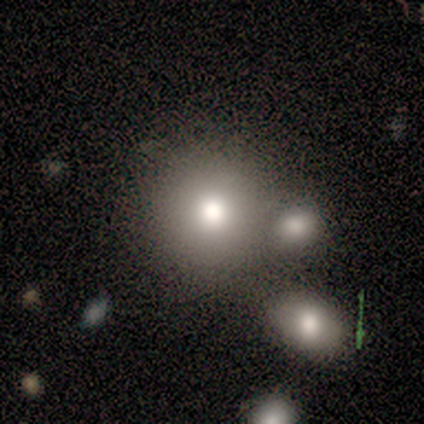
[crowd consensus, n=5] Volunteers were most divided on "merging": merger: 50%, none: 25%, minor disturbance: 25%, major disturbance: 0%. More confident: how rounded — round (100%); smooth or featured — smooth (80%).